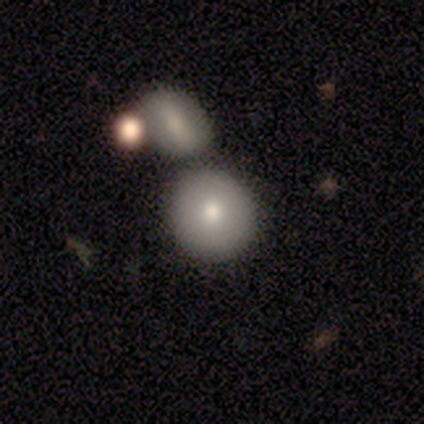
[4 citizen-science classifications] Morphology: type=smooth (50%, tied with featured or disk); roundness=round (100%); merging=merger (75%).